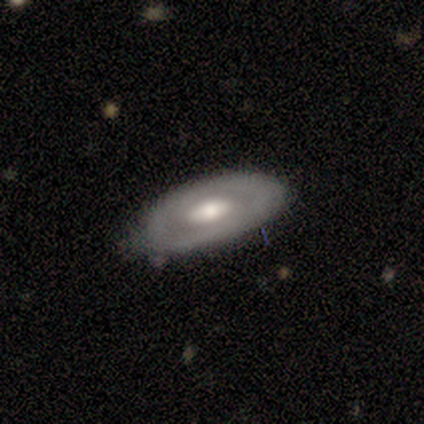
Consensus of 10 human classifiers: Smooth or featured? 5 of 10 (50%) said featured or disk. Edge-on disk? 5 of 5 (100%) said no. Bar? 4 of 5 (80%) said no. Spiral arms? 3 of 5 (60%) said no. Bulge size? 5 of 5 (100%) said moderate. Merging? 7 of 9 (78%) said none.